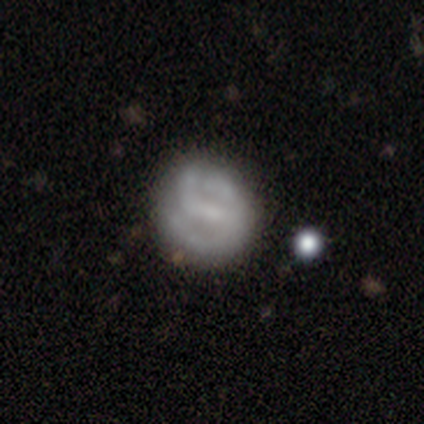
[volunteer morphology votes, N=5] Q: Smooth or featured?
A: featured or disk (60%); runner-up: smooth (40%)
Q: Edge-on disk?
A: no (100%)
Q: Bar?
A: weak (67%); runner-up: strong (33%)
Q: Spiral arms?
A: yes (100%)
Q: Spiral winding?
A: medium (67%); runner-up: tight (33%)
Q: Spiral arm count?
A: 2 (67%); runner-up: 1 (33%)
Q: Bulge size?
A: small (100%)
Q: Merging?
A: none (80%); runner-up: minor disturbance (20%)